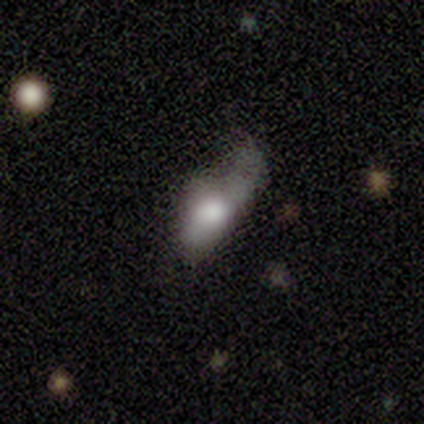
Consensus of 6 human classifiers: This is clearly a smooth galaxy (100%). How rounded: clearly in between (83%). Merging: clearly major disturbance (83%).